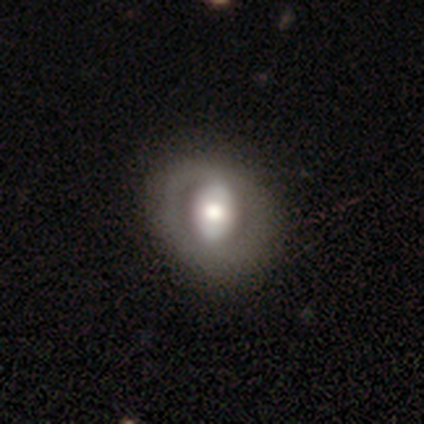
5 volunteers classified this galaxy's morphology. smooth 100%, featured or disk 0%, star or artifact 0%. Down the decision tree: how rounded — in between (60%); merging — none (60%).